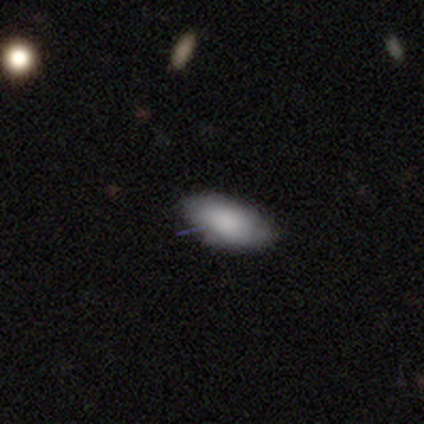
Smooth or featured? smooth (100%)
How rounded? in between (100%)
Merging? none (80%)